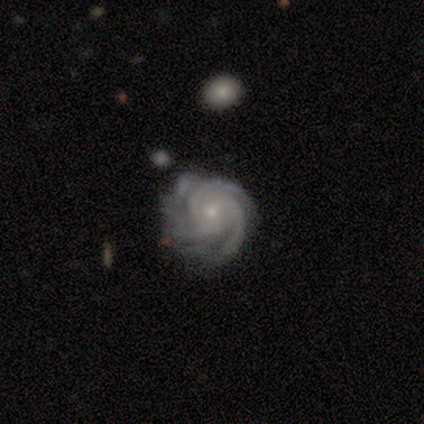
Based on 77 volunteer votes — smooth-or-featured: featured or disk: 95% | smooth: 3% | star or artifact: 3%
  disk-edge-on: no: 93% | yes: 7%
    bar: no: 85% | weak: 12% | strong: 3%
    has-spiral-arms: yes: 100% | no: 0%
      spiral-winding: tight: 79% | medium: 19% | loose: 1%
      spiral-arm-count: 3: 69% | 4: 10% | 2: 7% | can't tell: 7% | more than 4: 6% | 1: 0%
    bulge-size: small: 66% | moderate: 29% | large: 3% | dominant: 1% | none: 0%
  merging: none: 51% | minor disturbance: 36% | major disturbance: 9% | merger: 4%